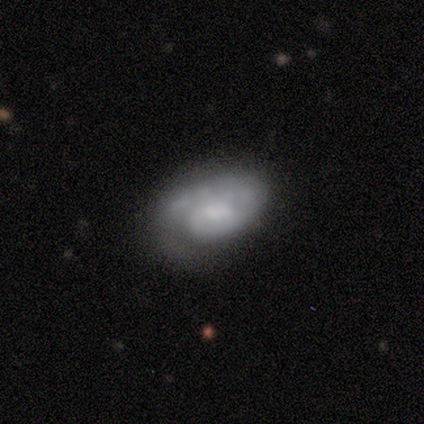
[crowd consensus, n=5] A featured or disk galaxy (60%) with no bar (67%), 1 (67%) tight (33%, tied with medium and loose) spiral arms (100%) and a moderate central bulge (67%). Merging: minor disturbance (40%, tied with major disturbance).